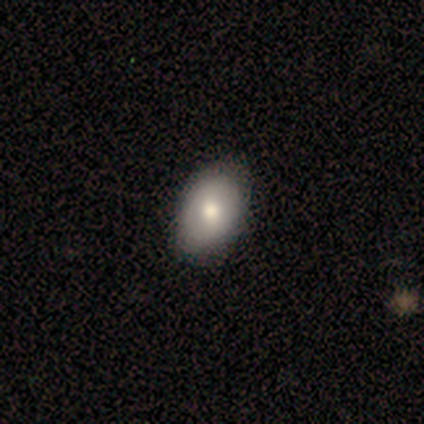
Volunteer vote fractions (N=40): Overall: smooth (82%). How rounded: in between (85%). Merging: none (75%).